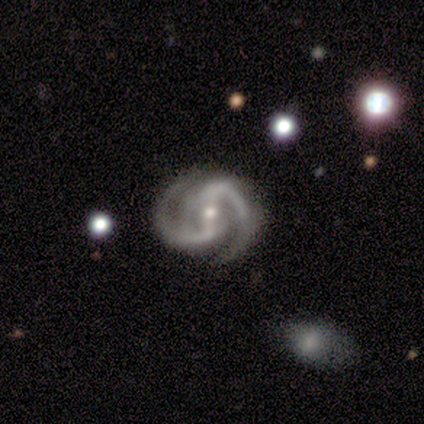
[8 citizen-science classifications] Smooth or featured? 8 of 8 (100%) said featured or disk. Edge-on disk? 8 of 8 (100%) said no. Bar? 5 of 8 (62%) said strong. Spiral arms? 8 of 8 (100%) said yes. Spiral winding? 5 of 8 (62%) said tight. Spiral arm count? 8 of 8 (100%) said 2. Bulge size? 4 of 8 (50%) said small. Merging? 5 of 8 (62%) said none.